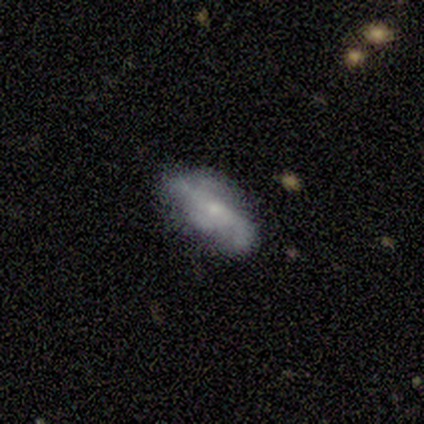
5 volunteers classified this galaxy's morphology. A smooth galaxy with no disk features (60%) that is in between round and cigar-shaped (67%).

Vote fractions:
- Smooth or featured? smooth: 60% / featured or disk: 20% / star or artifact: 20%
- How rounded? in between: 67% / cigar-shaped: 33% / round: 0%
- Merging? none: 75% / minor disturbance: 25% / major disturbance: 0% / merger: 0%